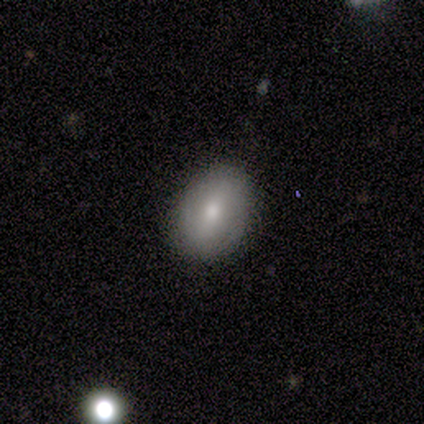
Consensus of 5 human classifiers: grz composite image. It shows a featured or disk galaxy (60%) with no bar (67%), no spiral arms (67%) and a moderate central bulge (67%). Merging: none (100%).